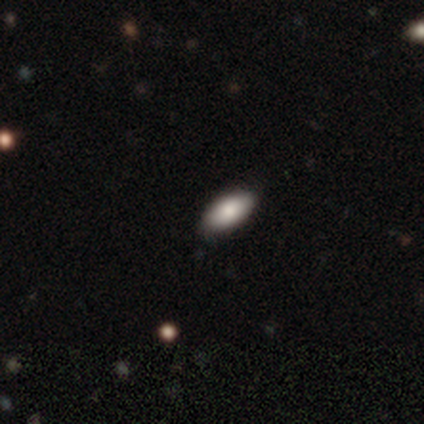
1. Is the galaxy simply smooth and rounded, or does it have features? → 80% smooth, 20% star or artifact, 0% featured or disk.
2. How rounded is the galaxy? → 100% in between, 0% round, 0% cigar-shaped.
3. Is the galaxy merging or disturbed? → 75% none, 25% minor disturbance, 0% major disturbance, 0% merger.